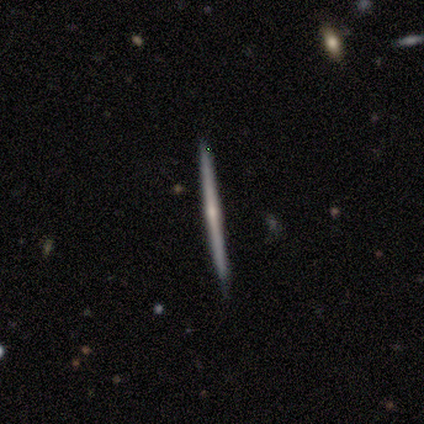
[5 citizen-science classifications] This is clearly a featured or disk galaxy (100%). It is clearly viewed edge-on (100%). Edge-on bulge: likely none (60%). Merging: clearly none (100%).